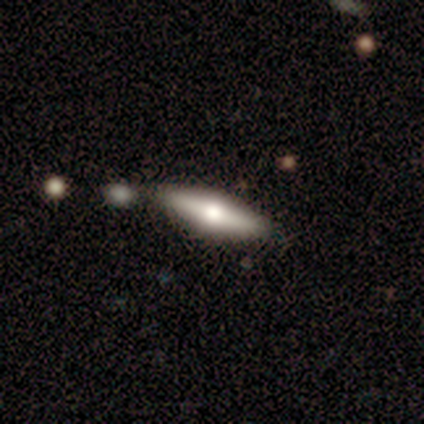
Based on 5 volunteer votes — This is clearly a smooth galaxy (80%). How rounded: possibly in between (50%, tied with cigar-shaped). Merging: likely none (60%).